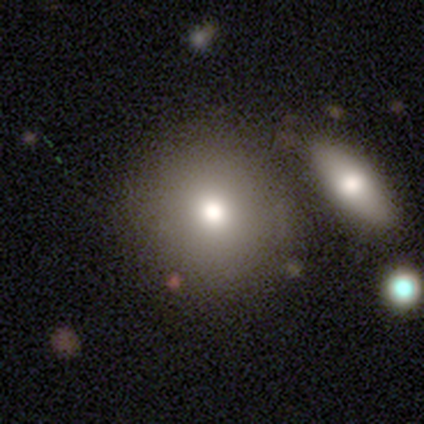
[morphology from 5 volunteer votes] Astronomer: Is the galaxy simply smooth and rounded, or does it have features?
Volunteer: smooth — 60% (runner-up: featured or disk, 40%).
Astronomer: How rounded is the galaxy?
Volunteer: round — 100%.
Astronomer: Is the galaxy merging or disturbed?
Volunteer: none — 60%.